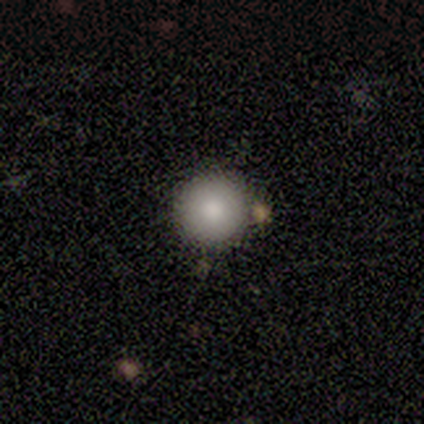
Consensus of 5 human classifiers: Q: Smooth or featured?
A: smooth (60%); runner-up: featured or disk (20%)
Q: How rounded?
A: round (100%)
Q: Merging?
A: none (100%)